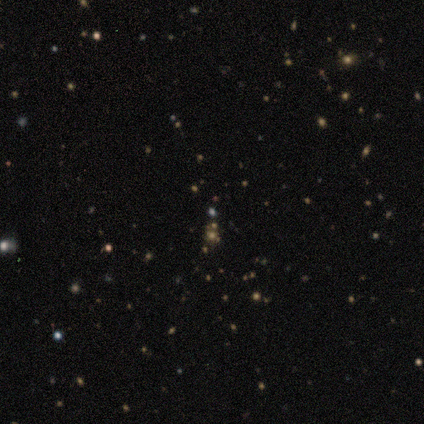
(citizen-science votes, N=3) Smooth or featured? star or artifact (100%)